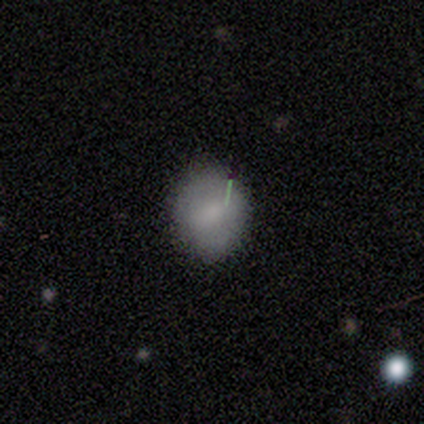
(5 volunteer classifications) This is likely a smooth galaxy (60%). How rounded: clearly round (100%). Merging: likely none (75%).